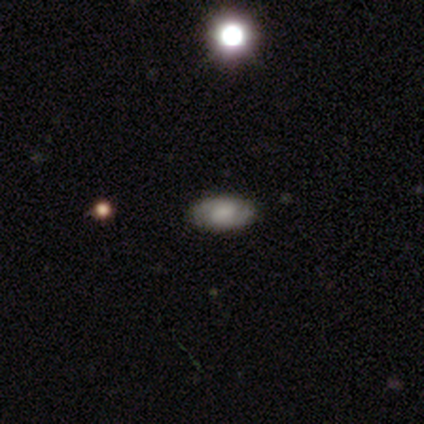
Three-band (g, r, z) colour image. It shows a featured or disk galaxy (61%) with a weak bar (50%), 2 (100%) medium (59%) spiral arms (85%) and a small central bulge (35%). Merging: none (80%).